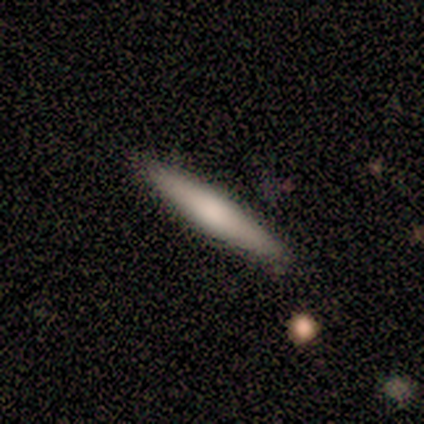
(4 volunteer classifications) A smooth galaxy with no disk features (75%) that is cigar-shaped (67%).

Vote fractions:
- Smooth or featured? smooth: 75% / star or artifact: 25% / featured or disk: 0%
- How rounded? cigar-shaped: 67% / in between: 33% / round: 0%
- Merging? none: 67% / major disturbance: 33% / minor disturbance: 0% / merger: 0%